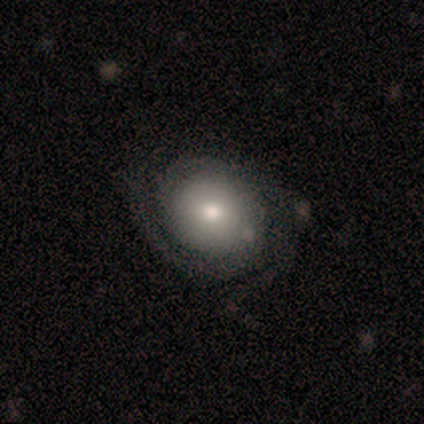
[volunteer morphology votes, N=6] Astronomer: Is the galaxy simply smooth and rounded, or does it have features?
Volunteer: featured or disk — 67%.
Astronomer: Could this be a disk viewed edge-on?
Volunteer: no — 100%.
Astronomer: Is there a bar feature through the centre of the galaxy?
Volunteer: no — 75%.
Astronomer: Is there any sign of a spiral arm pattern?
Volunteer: yes — 100%.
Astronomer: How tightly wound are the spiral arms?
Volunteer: tight — 75%.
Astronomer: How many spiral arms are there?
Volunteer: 2 — 75%.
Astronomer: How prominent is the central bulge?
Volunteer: small — 50%.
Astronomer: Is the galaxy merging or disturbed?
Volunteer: none — 83%.